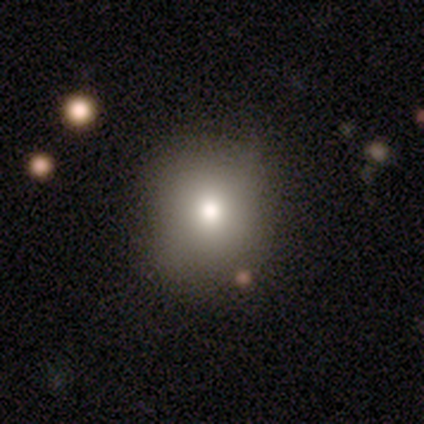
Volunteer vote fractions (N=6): smooth_or_featured: smooth (p=0.83) [alt: featured or disk p=0.17]
how_rounded: round (p=0.80) [alt: in between p=0.20]
merging: none (p=0.83) [alt: minor disturbance p=0.17]